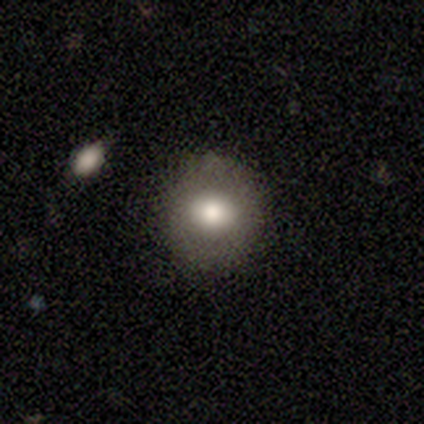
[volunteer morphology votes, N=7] Smooth or featured? smooth (43%, tied with star or artifact)
How rounded? round (100%)
Merging? none (100%)